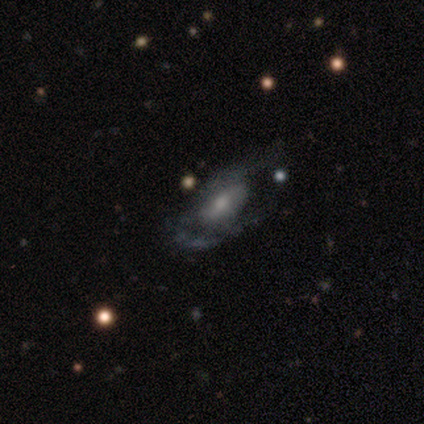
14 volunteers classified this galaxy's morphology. smooth_or_featured: featured or disk (p=0.64) [alt: smooth p=0.29]
disk_edge_on: no (p=1.00)
bar: weak (p=0.56) [alt: no p=0.33]
has_spiral_arms: no (p=0.56) [alt: yes p=0.44]
bulge_size: moderate (p=0.44) [tied with: small p=0.44]
merging: minor disturbance (p=0.38) [alt: none p=0.31]